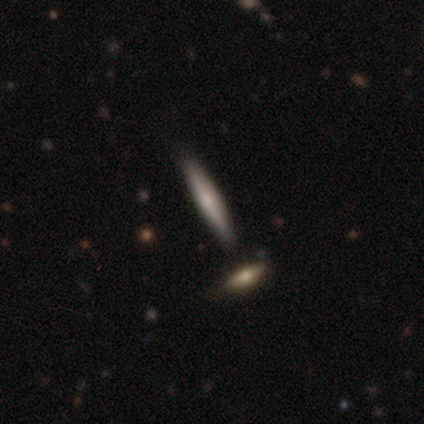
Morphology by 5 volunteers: This appears to be a smooth galaxy with no disk features (60%) that is cigar-shaped (100%). Merging: none (60%).